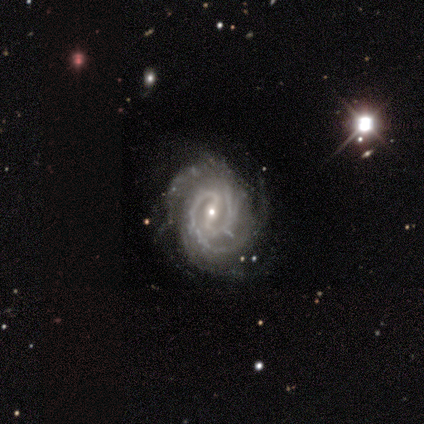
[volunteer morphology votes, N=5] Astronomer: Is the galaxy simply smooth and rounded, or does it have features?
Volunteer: featured or disk — 80%.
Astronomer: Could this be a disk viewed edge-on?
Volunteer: no — 75%.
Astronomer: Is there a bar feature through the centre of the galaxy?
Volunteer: strong — 67%.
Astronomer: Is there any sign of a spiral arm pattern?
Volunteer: yes — 100%.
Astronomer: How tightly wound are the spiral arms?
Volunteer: tight — 100%.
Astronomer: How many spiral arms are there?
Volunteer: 2 — 67%.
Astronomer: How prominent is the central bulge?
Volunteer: small — 100%.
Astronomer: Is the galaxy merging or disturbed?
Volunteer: none — 40%, tied with major disturbance at 40%.